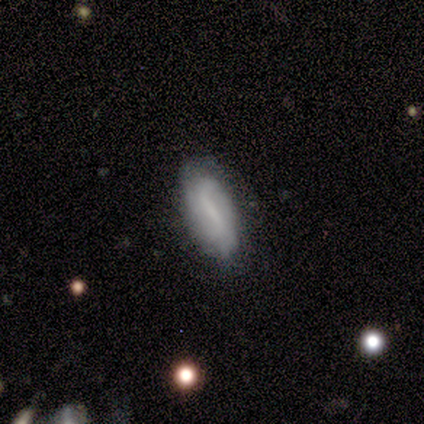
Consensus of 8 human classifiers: Smooth or featured? smooth (50%, tied with featured or disk)
How rounded? in between (75%)
Merging? none (88%)